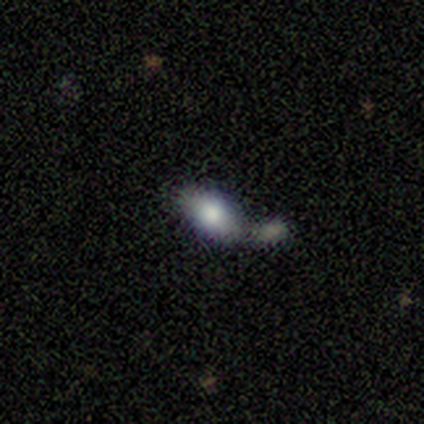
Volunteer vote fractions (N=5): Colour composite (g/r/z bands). It shows a smooth galaxy with no disk features (60%) that is in between round and cigar-shaped (100%). Merging: none (40%, tied with merger).